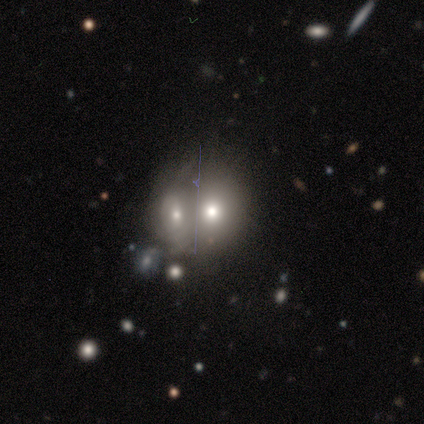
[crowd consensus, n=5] Morphology: type=smooth (60%); roundness=round (100%); merging=merger (100%).